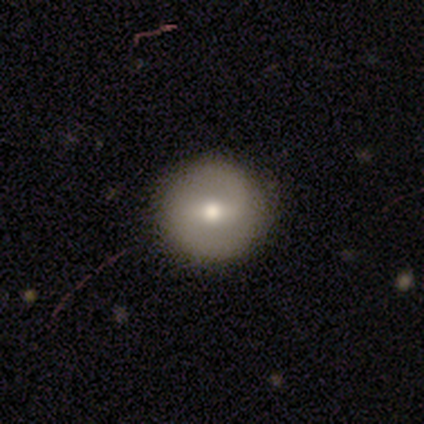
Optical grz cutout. It shows a featured or disk galaxy (58%) with a weak bar (48%), 2 (100%) medium (62%) spiral arms (62%) and a moderate central bulge (71%). Merging: none (91%).